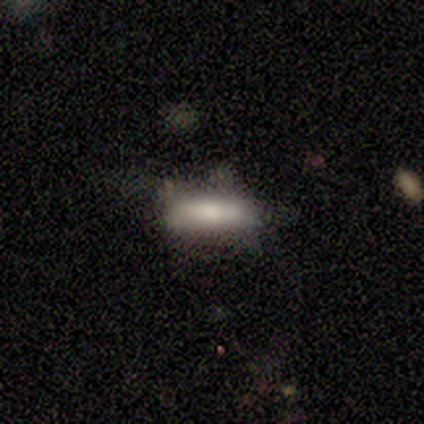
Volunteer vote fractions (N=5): This appears to be a smooth galaxy with no disk features (100%) that is in between round and cigar-shaped (60%). Merging: none (80%).